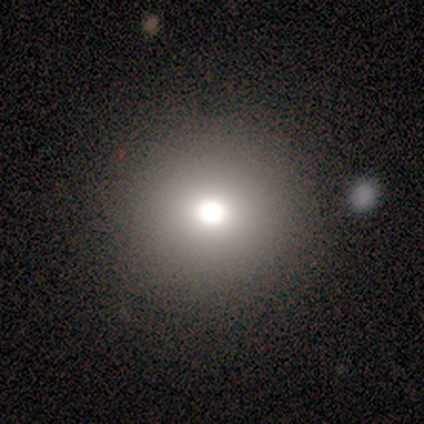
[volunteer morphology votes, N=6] Overall: smooth (50%; star or artifact 33%). How rounded: round (100%). Merging: none (75%).